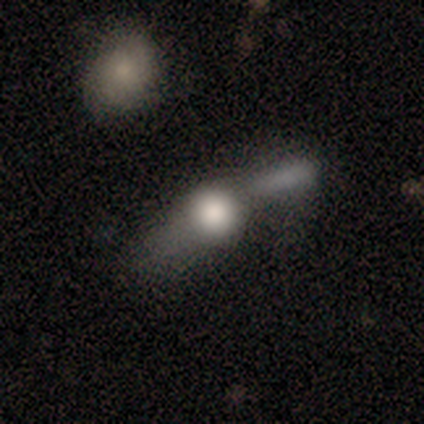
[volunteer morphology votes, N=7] A smooth galaxy with no disk features (43%) that is round (67%). Merging: minor disturbance (40%, tied with major disturbance).